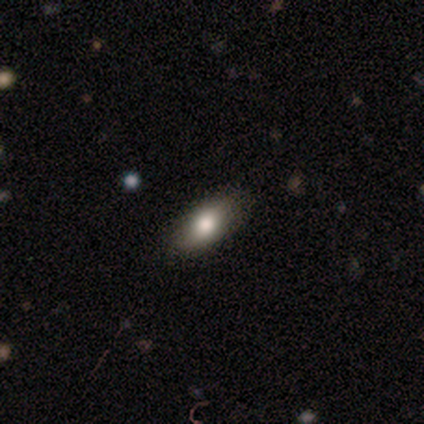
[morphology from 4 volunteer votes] smooth 100%, featured or disk 0%, star or artifact 0%. Down the decision tree: how rounded — in between (100%); merging — none (100%).